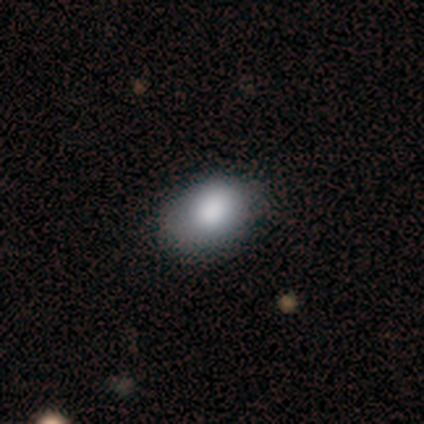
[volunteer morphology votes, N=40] Smooth or featured? smooth (90%)
How rounded? in between (72%)
Merging? none (58%)